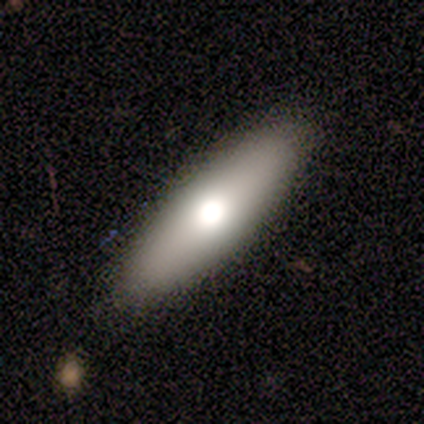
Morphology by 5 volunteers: A smooth galaxy with no disk features (80%) that is in between round and cigar-shaped (100%).

Vote fractions:
- Smooth or featured? smooth: 80% / star or artifact: 20% / featured or disk: 0%
- How rounded? in between: 100% / round: 0% / cigar-shaped: 0%
- Merging? none: 75% / minor disturbance: 25% / major disturbance: 0% / merger: 0%